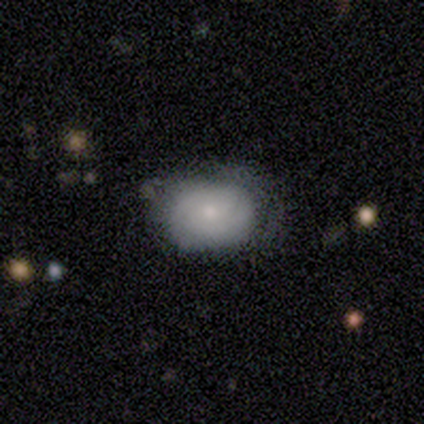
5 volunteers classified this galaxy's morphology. Volunteers were most divided on "merging": none: 60%, minor disturbance: 40%, major disturbance: 0%, merger: 0%. More confident: how rounded — in between (100%); smooth or featured — smooth (80%).